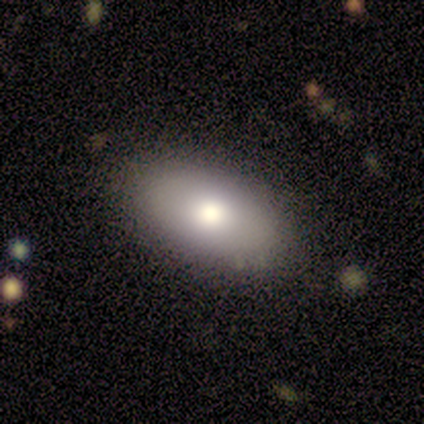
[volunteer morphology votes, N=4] Volunteers were most divided on "merging": none: 75%, minor disturbance: 25%, major disturbance: 0%, merger: 0%. More confident: smooth or featured — smooth (100%); how rounded — in between (100%).